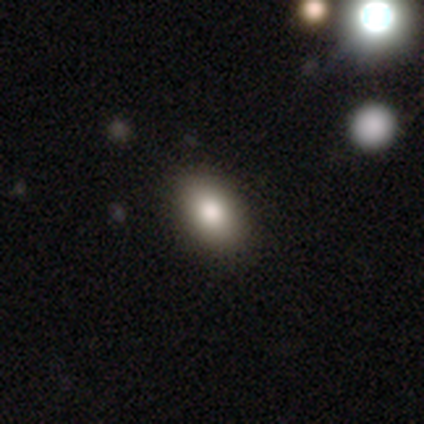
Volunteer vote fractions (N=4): A smooth galaxy with no disk features (100%) that is in between round and cigar-shaped (75%). Merging: none (100%).